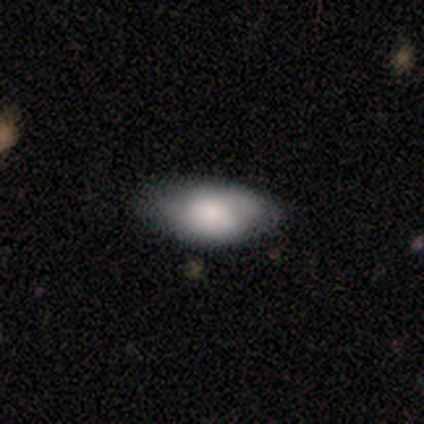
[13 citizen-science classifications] Q: Smooth or featured?
A: smooth (69%); runner-up: featured or disk (31%)
Q: How rounded?
A: in between (100%)
Q: Merging?
A: none (77%); runner-up: minor disturbance (15%)